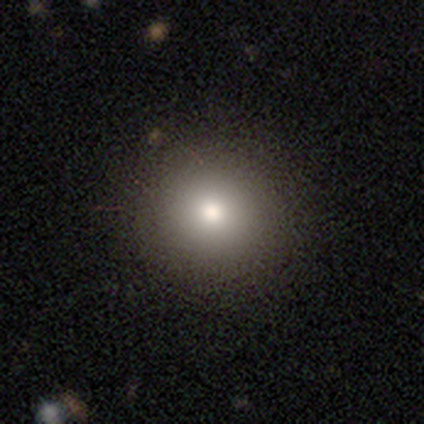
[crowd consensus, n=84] Smooth or featured: smooth — 77% (featured or disk — 12%)
How rounded: round — 95% (in between — 5%)
Merging: none — 91% (minor disturbance — 5%)